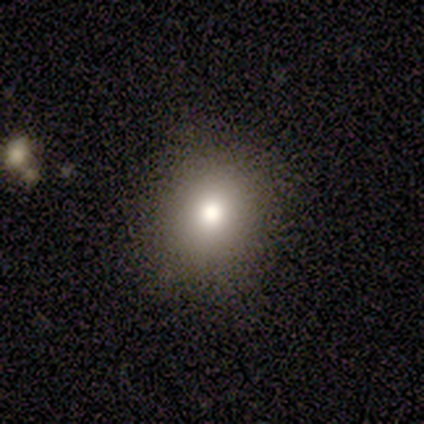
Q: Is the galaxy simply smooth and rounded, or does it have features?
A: smooth — 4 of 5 (80%).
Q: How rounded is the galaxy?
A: round — 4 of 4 (100%).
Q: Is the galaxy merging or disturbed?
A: none — 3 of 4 (75%).